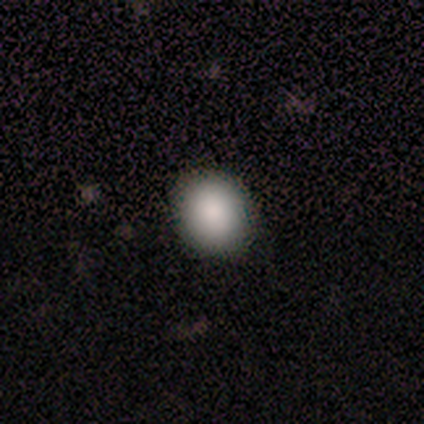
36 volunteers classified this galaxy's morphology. This is clearly a smooth galaxy (86%). How rounded: likely round (74%). Merging: clearly none (82%).